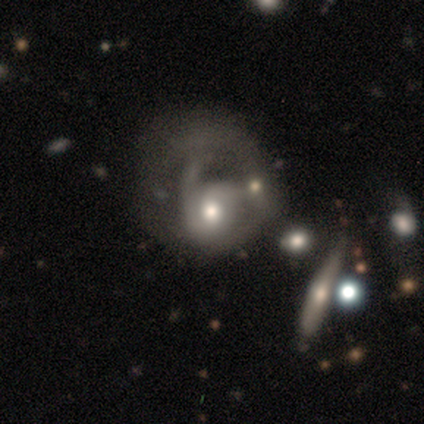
smooth_or_featured: featured or disk (p=0.77) [alt: smooth p=0.20]
disk_edge_on: no (p=0.91) [alt: yes p=0.09]
bar: no (p=0.79) [alt: weak p=0.18]
has_spiral_arms: yes (p=0.79) [alt: no p=0.21]
spiral_winding: loose (p=0.35) [alt: medium p=0.33]
spiral_arm_count: 1 (p=0.38) [alt: 2 p=0.33]
bulge_size: moderate (p=0.57) [alt: small p=0.30]
merging: major disturbance (p=0.65) [alt: merger p=0.17]